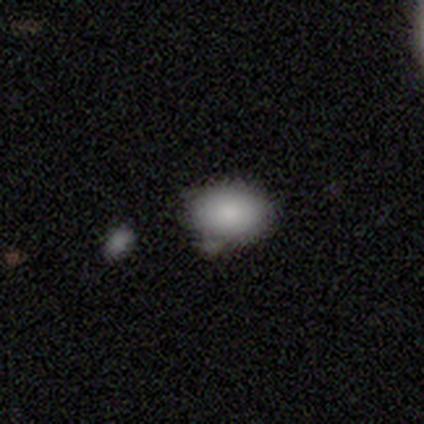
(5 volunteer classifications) smooth-or-featured: smooth: 80% | star or artifact: 20% | featured or disk: 0%
  how-rounded: in between: 100% | round: 0% | cigar-shaped: 0%
  merging: none: 50% (tied) | minor disturbance: 50% (tied) | major disturbance: 0% | merger: 0%